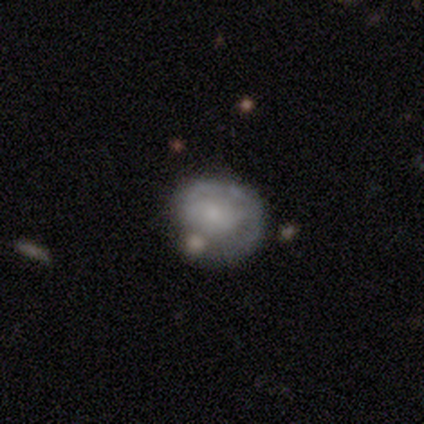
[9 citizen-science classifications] A smooth galaxy with no disk features (67%) that is round (83%).

Vote fractions:
- Smooth or featured? smooth: 67% / featured or disk: 33% / star or artifact: 0%
- How rounded? round: 83% / in between: 17% / cigar-shaped: 0%
- Merging? minor disturbance: 44% / none: 33% / major disturbance: 11% / merger: 11%